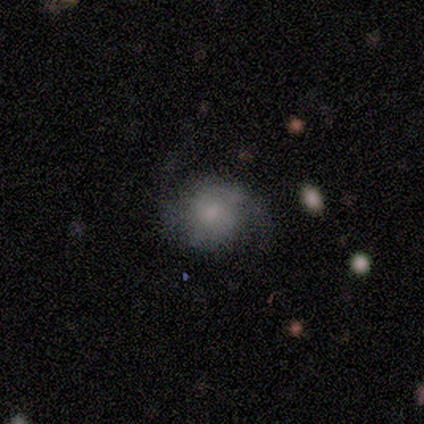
Morphology: type=featured or disk (100%); edge-on=no (100%); bar=weak (100%); spiral arms=yes (50%, tied with no); winding=loose (100%); arm count=2 (100%); bulge=small (100%); merging=none (100%).